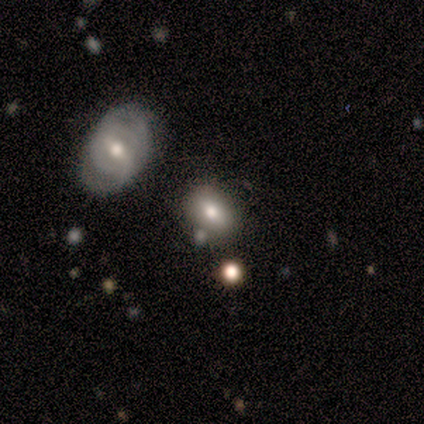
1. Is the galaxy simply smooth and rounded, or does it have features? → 75% featured or disk, 25% smooth, 0% star or artifact.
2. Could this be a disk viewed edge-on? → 100% no, 0% yes.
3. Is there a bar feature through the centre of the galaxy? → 67% no, 33% weak, 0% strong.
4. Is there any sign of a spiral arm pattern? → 100% no, 0% yes.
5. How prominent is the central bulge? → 67% moderate, 33% large, 0% dominant, 0% small, 0% none.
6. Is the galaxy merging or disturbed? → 75% none, 25% merger, 0% minor disturbance, 0% major disturbance.